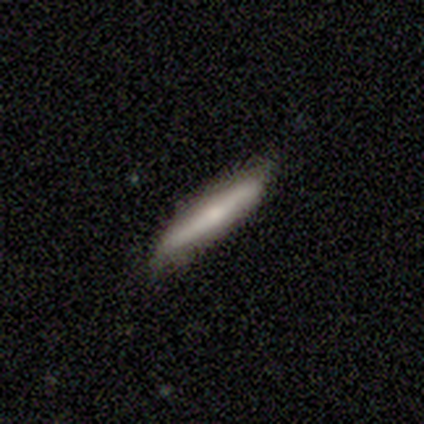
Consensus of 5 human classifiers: Overall: smooth (60%; featured or disk 40%). How rounded: cigar-shaped (100%). Merging: none (100%).